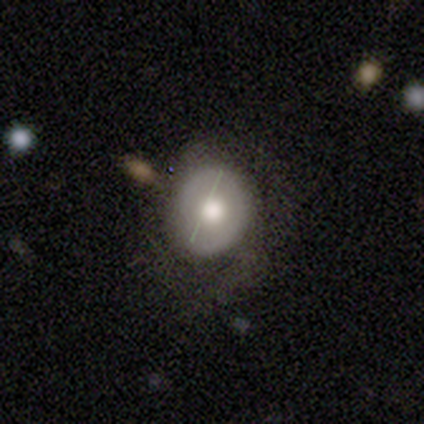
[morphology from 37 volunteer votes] Smooth or featured? 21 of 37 (57%) said smooth. How rounded? 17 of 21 (81%) said round. Merging? 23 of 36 (64%) said none.